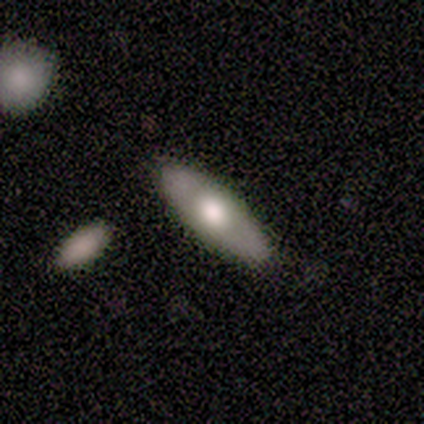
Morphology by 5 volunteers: This appears to be a smooth galaxy with no disk features (60%) that is cigar-shaped (67%). Merging: none (80%).